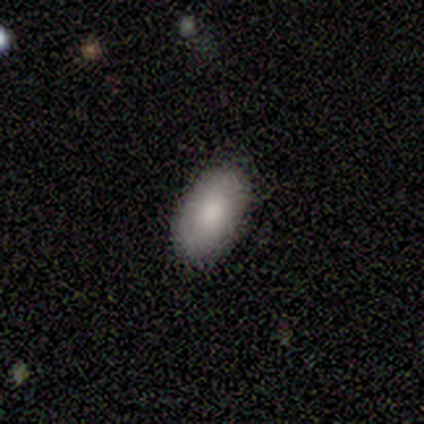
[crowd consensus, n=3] Smooth or featured? 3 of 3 (100%) said smooth. How rounded? 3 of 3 (100%) said in between. Merging? 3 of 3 (100%) said none.